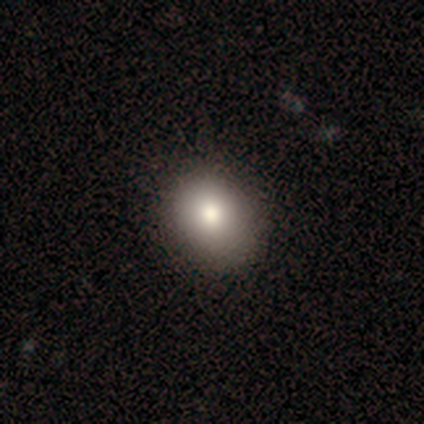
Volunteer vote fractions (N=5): Overall: smooth (80%). How rounded: round (75%). Merging: none (100%).